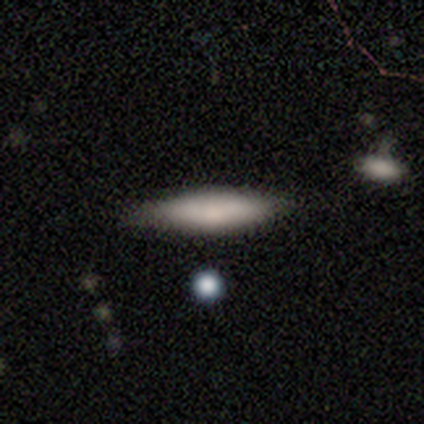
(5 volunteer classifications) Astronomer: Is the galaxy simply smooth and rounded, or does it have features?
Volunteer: featured or disk — 60% (runner-up: smooth, 40%).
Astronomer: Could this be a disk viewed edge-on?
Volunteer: yes — 100%.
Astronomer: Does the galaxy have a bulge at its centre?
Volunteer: none — 67%.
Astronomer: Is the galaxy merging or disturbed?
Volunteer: none — 80%.